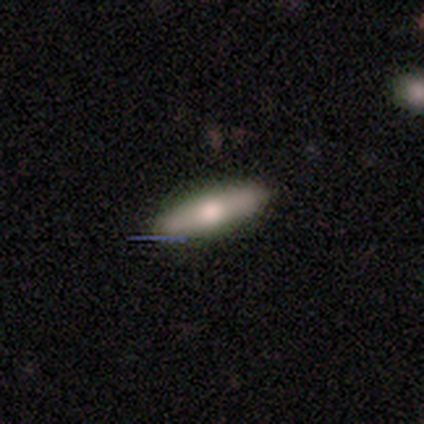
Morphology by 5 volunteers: Volunteers were most divided on "how rounded" (2-way tie): in between: 50%, cigar-shaped: 50%, round: 0%. More confident: merging — none (100%); smooth or featured — smooth (80%).